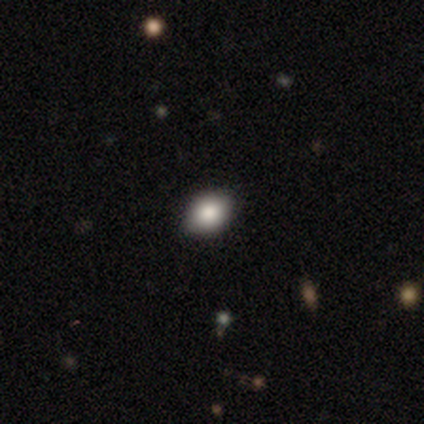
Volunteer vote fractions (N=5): Volunteers were most divided on "smooth or featured": star or artifact: 60%, smooth: 20%, featured or disk: 20%.